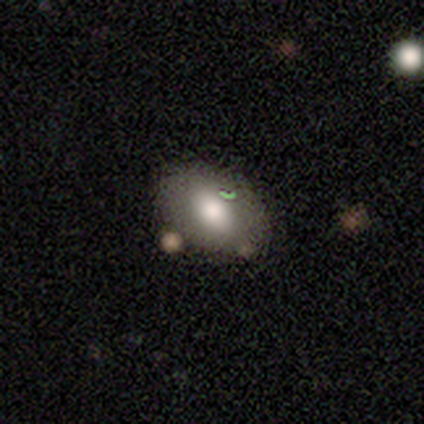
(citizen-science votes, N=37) smooth 70%, featured or disk 16%, star or artifact 14%. Down the decision tree: how rounded — in between (88%); merging — none (66%).